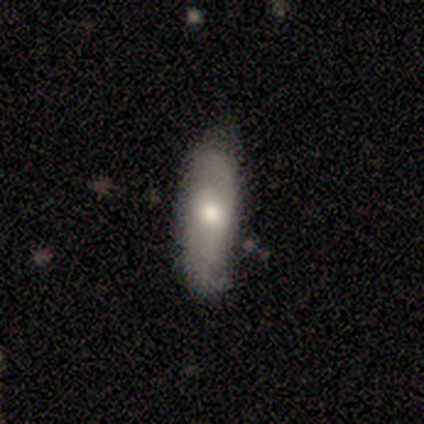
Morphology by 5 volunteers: type=smooth (100%); roundness=in between (60%); merging=none (100%).